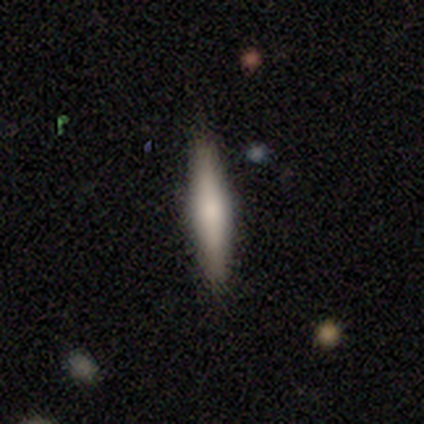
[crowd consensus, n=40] Smooth or featured? 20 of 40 (50%) said featured or disk. Edge-on disk? 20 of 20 (100%) said yes. Edge-on bulge? 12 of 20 (60%) said rounded. Merging? 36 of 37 (97%) said none.